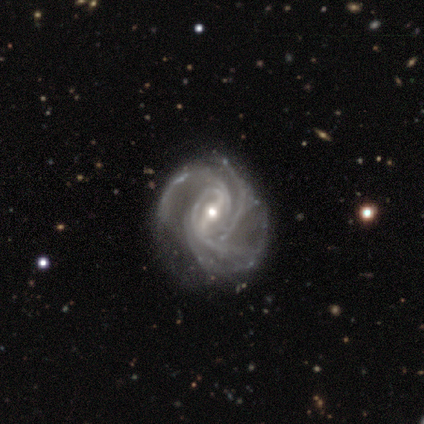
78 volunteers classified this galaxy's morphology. Smooth or featured?
  - featured or disk: 100% *
  - smooth: 0%
  - star or artifact: 0%
Edge-on disk?
  - no: 99% *
  - yes: 1%
Bar?
  - strong: 60% *
  - weak: 34%
  - no: 6%
Spiral arms?
  - yes: 100% *
  - no: 0%
Spiral winding?
  - tight: 52% *
  - medium: 36%
  - loose: 12%
Spiral arm count?
  - 4: 53% *
  - 3: 18%
  - can't tell: 16%
  - more than 4: 6%
  - 2: 5%
  - 1: 1%
Bulge size?
  - small: 51% *
  - moderate: 45%
  - large: 4%
  - dominant: 0%
  - none: 0%
Merging?
  - none: 35% *
  - minor disturbance: 17%
  - major disturbance: 9%
  - merger: 3%